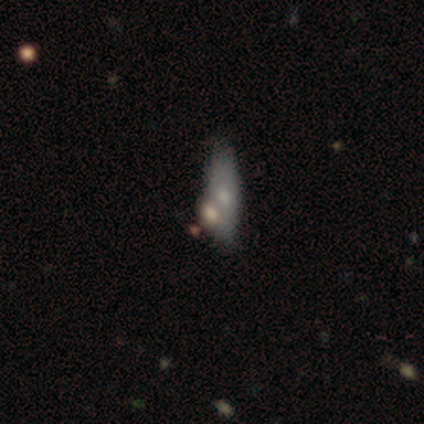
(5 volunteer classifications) Volunteers were most divided on "how rounded" (2-way tie): in between: 50%, cigar-shaped: 50%, round: 0%. More confident: smooth or featured — smooth (80%); merging — none (60%).